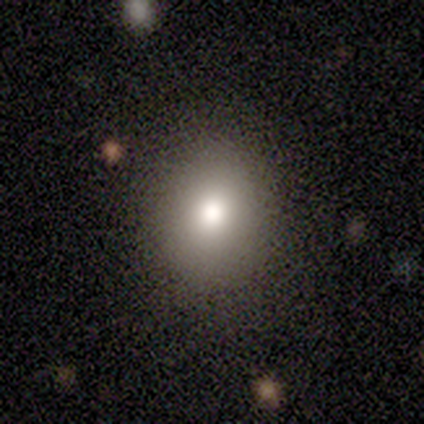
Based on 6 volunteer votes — Smooth or featured: smooth — 83% (star or artifact — 17%)
How rounded: round — 80% (in between — 20%)
Merging: none — 100%